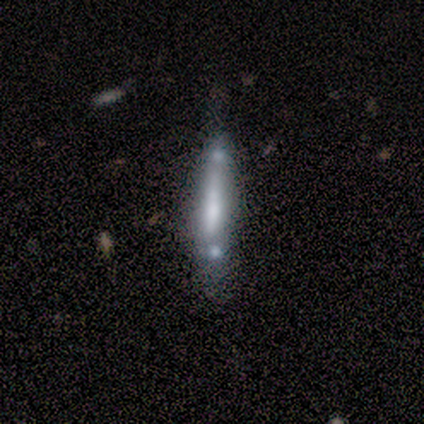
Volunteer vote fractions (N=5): This is likely a smooth galaxy (60%). How rounded: clearly cigar-shaped (100%). Merging: marginally none (40%, tied with major disturbance).